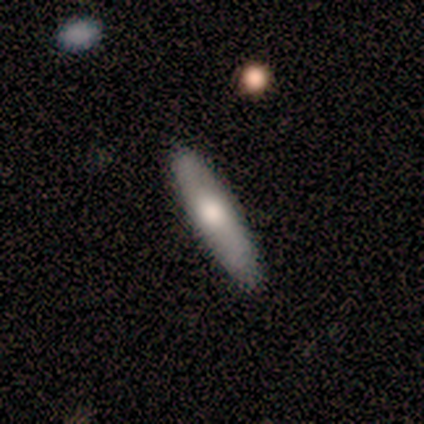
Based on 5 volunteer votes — Smooth or featured?
  - smooth: 80% *
  - featured or disk: 20%
  - star or artifact: 0%
How rounded?
  - in between: 50% * (tied)
  - cigar-shaped: 50% * (tied)
  - round: 0%
Merging?
  - none: 80% *
  - minor disturbance: 20%
  - major disturbance: 0%
  - merger: 0%